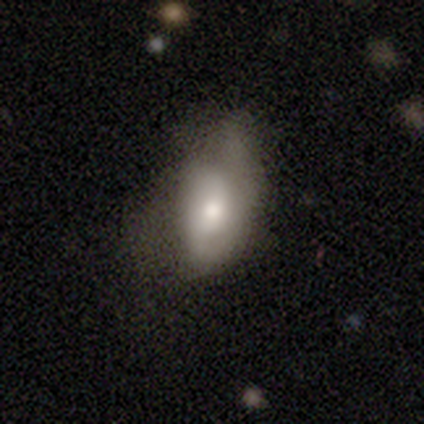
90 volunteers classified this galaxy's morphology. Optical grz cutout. It shows a smooth galaxy with no disk features (62%) that is in between round and cigar-shaped (91%). Merging: none (41%).